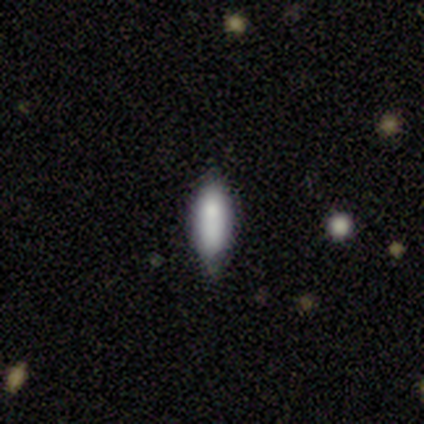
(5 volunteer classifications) Volunteers were most divided on "how rounded": in between: 60%, cigar-shaped: 40%, round: 0%. More confident: smooth or featured — smooth (100%); merging — none (60%).